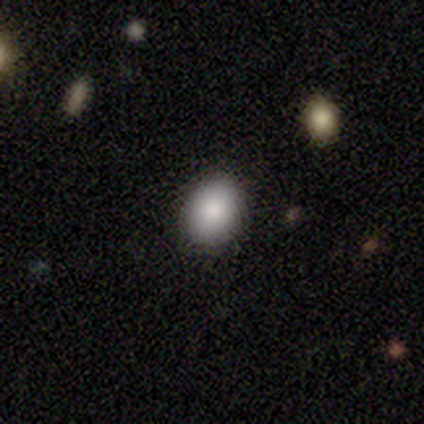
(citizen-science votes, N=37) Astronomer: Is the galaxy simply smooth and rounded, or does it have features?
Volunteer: smooth — 92%.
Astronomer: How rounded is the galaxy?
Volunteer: in between — 56% (runner-up: round, 44%).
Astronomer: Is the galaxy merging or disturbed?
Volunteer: none — 86%.